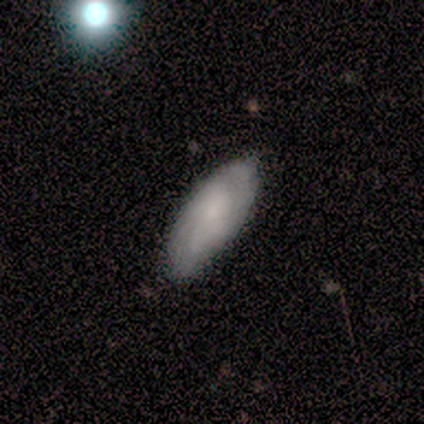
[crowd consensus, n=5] Smooth or featured? smooth (60%)
How rounded? in between (67%)
Merging? none (50%, tied with minor disturbance)